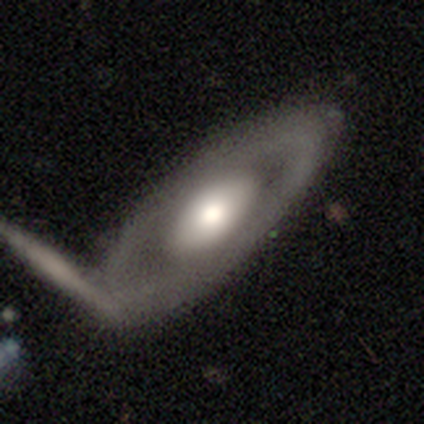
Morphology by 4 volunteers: A smooth galaxy with no disk features (50%, tied with featured or disk) that is round (50%, tied with cigar-shaped). Merging: none (75%).